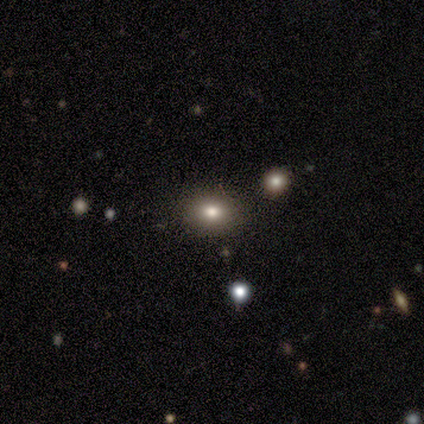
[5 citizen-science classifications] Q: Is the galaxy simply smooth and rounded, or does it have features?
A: smooth — 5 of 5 (100%).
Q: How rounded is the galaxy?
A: round — 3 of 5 (60%).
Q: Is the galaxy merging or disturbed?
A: none — 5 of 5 (100%).